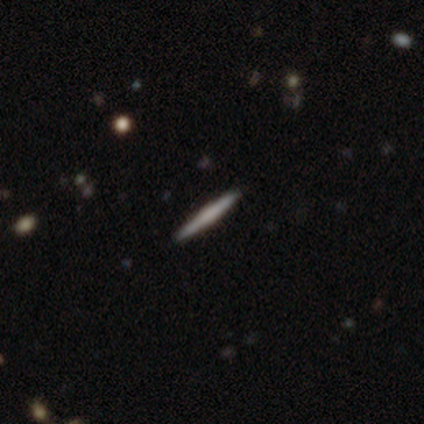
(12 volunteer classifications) Smooth or featured? 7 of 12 (58%) said featured or disk. Edge-on disk? 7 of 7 (100%) said yes. Edge-on bulge? 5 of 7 (71%) said none. Merging? 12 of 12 (100%) said none.